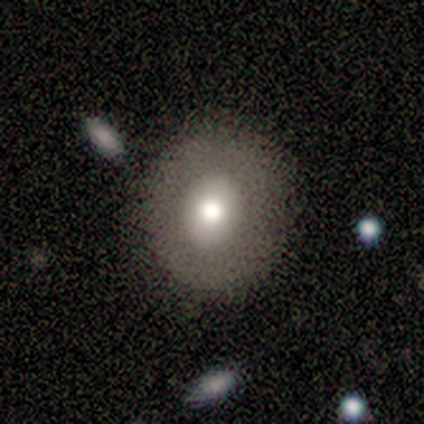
Smooth or featured?
  - smooth: 65% *
  - featured or disk: 32%
  - star or artifact: 2%
How rounded?
  - round: 81% *
  - in between: 19%
  - cigar-shaped: 0%
Merging?
  - none: 85% *
  - minor disturbance: 13%
  - merger: 3%
  - major disturbance: 0%